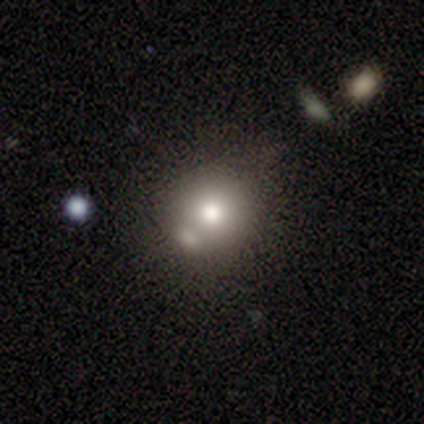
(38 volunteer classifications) Smooth or featured? smooth (68%)
How rounded? round (96%)
Merging? none (76%)